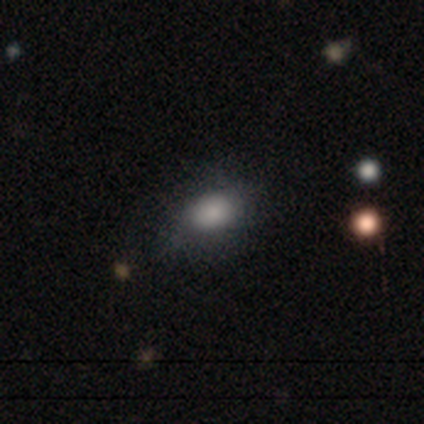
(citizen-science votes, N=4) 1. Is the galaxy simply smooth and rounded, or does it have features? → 100% smooth, 0% featured or disk, 0% star or artifact.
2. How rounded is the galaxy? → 75% in between, 25% round, 0% cigar-shaped.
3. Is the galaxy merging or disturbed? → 75% none, 25% minor disturbance, 0% major disturbance, 0% merger.